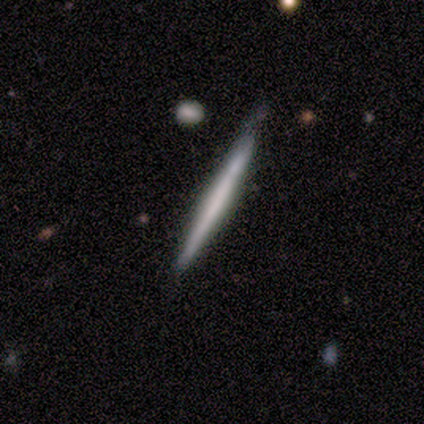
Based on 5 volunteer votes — Smooth or featured: featured or disk — 60% (smooth — 40%)
Edge-on disk: yes — 100%
Edge-on bulge: none — 100%
Merging: none — 100%